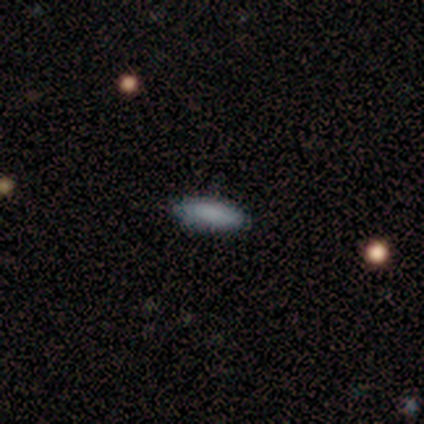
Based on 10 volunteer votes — Q: Smooth or featured?
A: smooth (100%)
Q: How rounded?
A: in between (60%); runner-up: cigar-shaped (40%)
Q: Merging?
A: none (90%); runner-up: minor disturbance (10%)